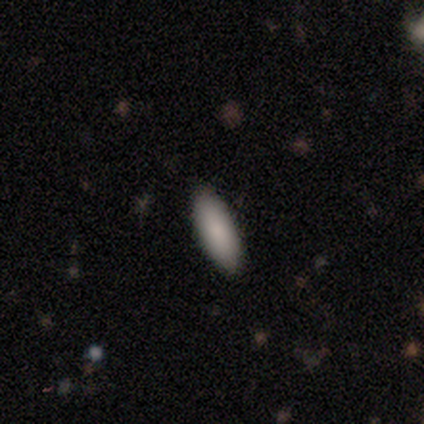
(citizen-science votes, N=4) smooth-or-featured: smooth: 100% | featured or disk: 0% | star or artifact: 0%
  how-rounded: in between: 50% (tied) | cigar-shaped: 50% (tied) | round: 0%
  merging: none: 100% | minor disturbance: 0% | major disturbance: 0% | merger: 0%